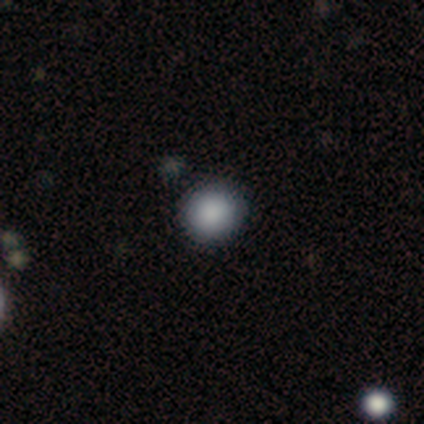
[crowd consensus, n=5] Volunteers were most divided on "how rounded": round: 67%, in between: 33%, cigar-shaped: 0%. More confident: merging — none (75%); smooth or featured — smooth (60%).